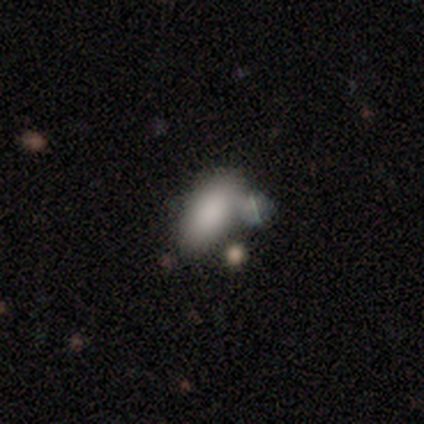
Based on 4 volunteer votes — This appears to be a smooth galaxy with no disk features (100%) that is in between round and cigar-shaped (100%). Merging: none (50%).